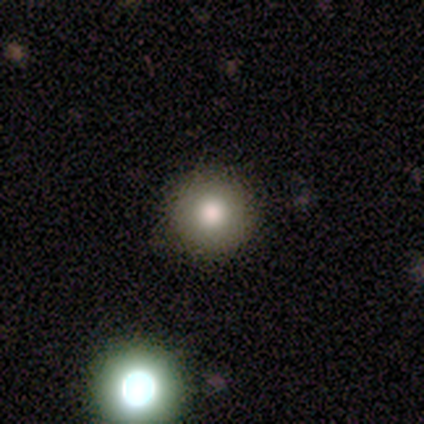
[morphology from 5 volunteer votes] This appears to be a smooth galaxy with no disk features (80%) that is round (100%). Merging: none (100%).